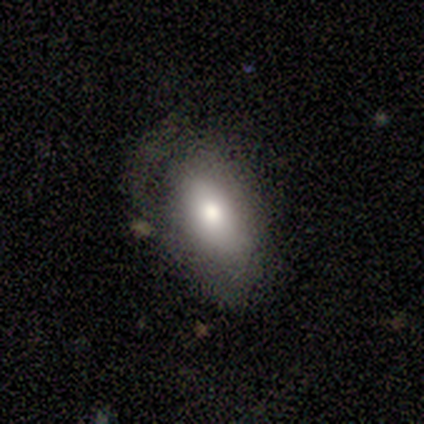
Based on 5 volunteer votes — Smooth or featured: smooth — 80% (featured or disk — 20%)
How rounded: in between — 100%
Merging: none — 100%